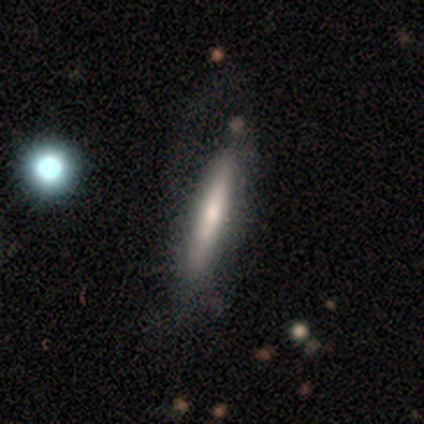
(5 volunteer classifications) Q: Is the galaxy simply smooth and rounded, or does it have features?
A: smooth — 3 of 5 (60%).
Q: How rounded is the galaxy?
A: cigar-shaped — 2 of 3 (67%).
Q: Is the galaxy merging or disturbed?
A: none — 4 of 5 (80%).